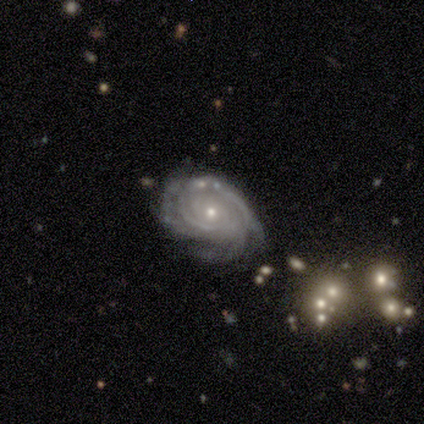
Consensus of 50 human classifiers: A featured or disk galaxy (98%) with no bar (96%), tight (82%) spiral arms (100%) and a small central bulge (63%). Merging: none (59%).